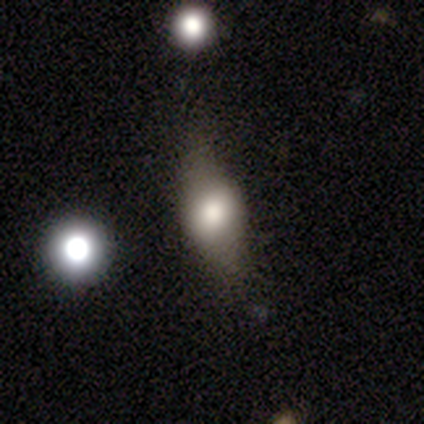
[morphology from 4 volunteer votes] A smooth galaxy with no disk features (75%) that is in between round and cigar-shaped (67%). Merging: none (50%, tied with minor disturbance).